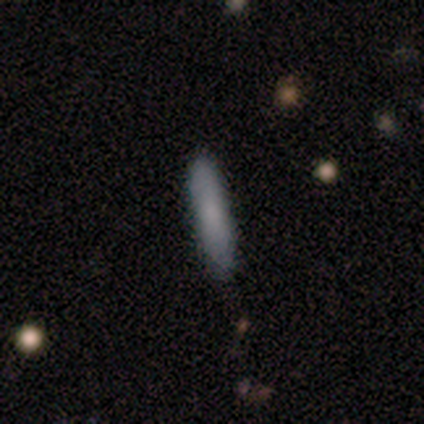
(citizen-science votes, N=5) smooth_or_featured: smooth (p=0.80) [alt: featured or disk p=0.20]
how_rounded: cigar-shaped (p=0.75) [alt: in between p=0.25]
merging: none (p=0.80) [alt: minor disturbance p=0.20]